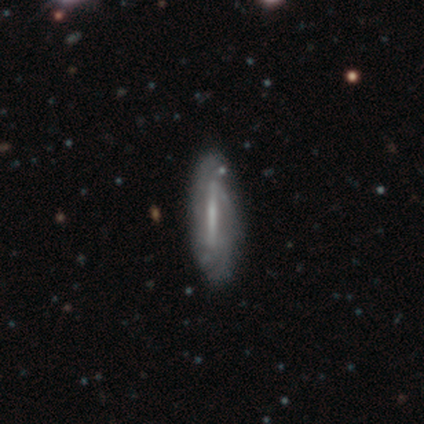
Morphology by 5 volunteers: A featured or disk galaxy (60%) with a weak bar (50%, tied with no), 2 (50%, tied with can't tell) tight (50%, tied with medium) spiral arms (100%) and a moderate central bulge (50%, tied with none).

Vote fractions:
- Smooth or featured? featured or disk: 60% / smooth: 20% / star or artifact: 20%
- Edge-on disk? no: 67% / yes: 33%
- Bar? weak: 50% (tied) / no: 50% (tied) / strong: 0%
- Spiral arms? yes: 100% / no: 0%
- Spiral winding? tight: 50% (tied) / medium: 50% (tied) / loose: 0%
- Spiral arm count? 2: 50% (tied) / can't tell: 50% (tied) / 1: 0% / 3: 0% / 4: 0% / more than 4: 0%
- Bulge size? moderate: 50% (tied) / none: 50% (tied) / dominant: 0% / large: 0% / small: 0%
- Merging? none: 75% / merger: 25% / minor disturbance: 0% / major disturbance: 0%